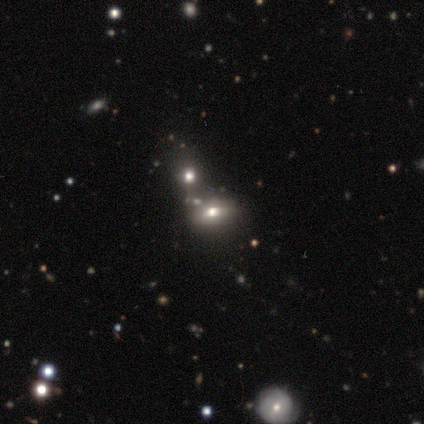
A smooth galaxy with no disk features (60%) that is in between round and cigar-shaped (100%). Merging: merger (80%).